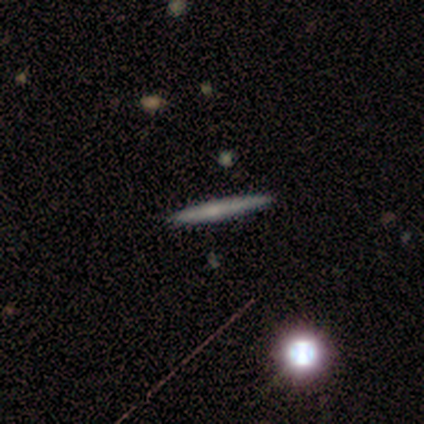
A smooth galaxy with no disk features (80%) that is cigar-shaped (75%). Merging: none (80%).